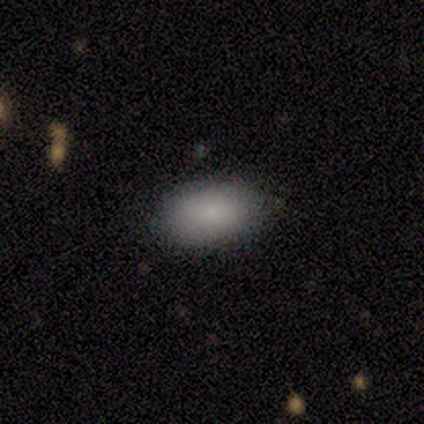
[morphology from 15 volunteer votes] This appears to be a smooth galaxy with no disk features (87%) that is in between round and cigar-shaped (92%). Merging: none (71%).